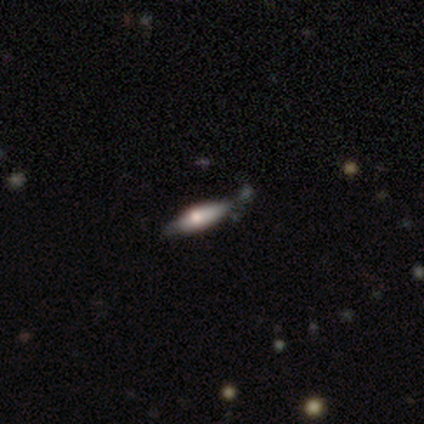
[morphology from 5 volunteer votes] This is likely a smooth galaxy (60%). How rounded: likely cigar-shaped (67%). Merging: likely minor disturbance (60%).